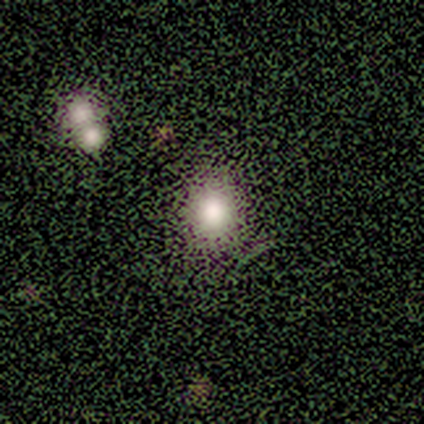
A smooth galaxy with no disk features (40%, tied with star or artifact) that is round (100%). Merging: none (100%).